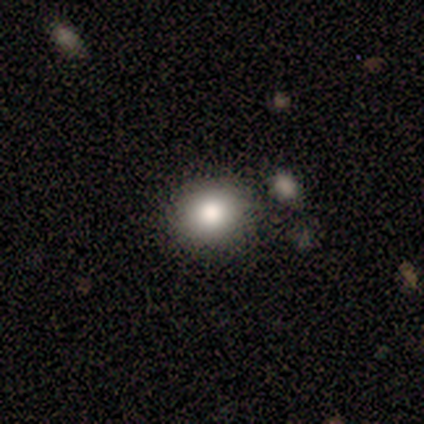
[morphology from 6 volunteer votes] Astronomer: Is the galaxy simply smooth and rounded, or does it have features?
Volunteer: smooth — 83%.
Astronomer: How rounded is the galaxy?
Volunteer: round — 60% (runner-up: in between, 40%).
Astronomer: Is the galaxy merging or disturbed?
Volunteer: none — 80%.